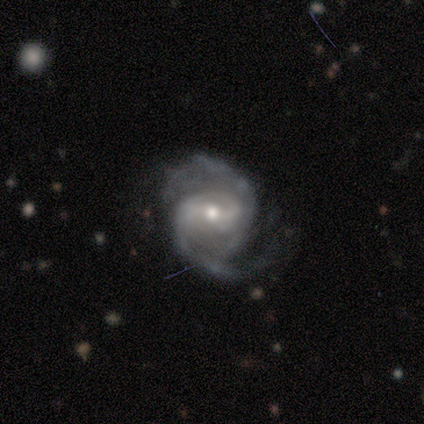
Volunteers were most divided on "bar" (2-way tie): weak: 40%, no: 40%, strong: 20%; "bulge size" (2-way tie): moderate: 40%, small: 40%, large: 20%, dominant: 0%, none: 0%. More confident: smooth or featured — featured or disk (100%); edge-on disk — no (100%); spiral arms — yes (100%); spiral arm count — 2 (100%); merging — none (60%); spiral winding — medium (60%).